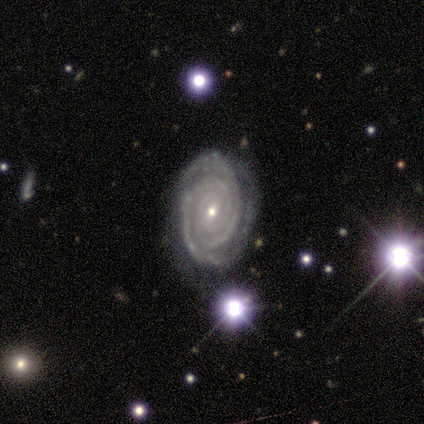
featured or disk 60%, star or artifact 40%, smooth 0%. Down the decision tree: edge-on disk — no (100%); bar — weak (100%); spiral arms — yes (100%); spiral arm count — 2 (67%); spiral winding — tight (100%); bulge size — small (67%); merging — none (67%).